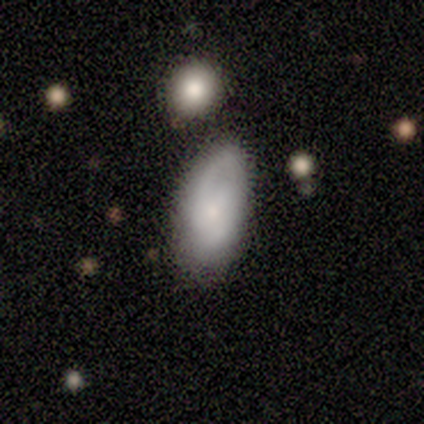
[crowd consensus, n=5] Smooth or featured? smooth (60%)
How rounded? in between (100%)
Merging? none (80%)